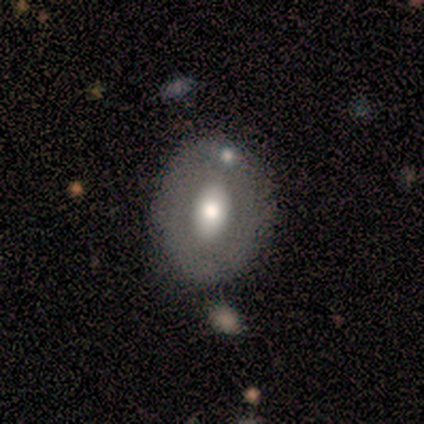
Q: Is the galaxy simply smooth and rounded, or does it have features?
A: smooth — 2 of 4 (50%, tied with featured or disk).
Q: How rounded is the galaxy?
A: round — 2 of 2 (100%).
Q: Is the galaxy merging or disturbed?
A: none — 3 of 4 (75%).